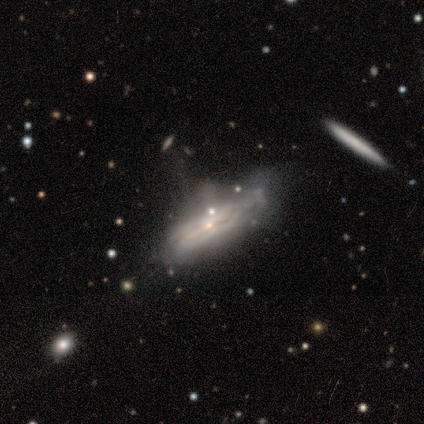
Volunteers were most divided on "merging": minor disturbance: 41%, none: 36%, major disturbance: 15%, merger: 8%. More confident: edge-on disk — yes (70%); smooth or featured — featured or disk (66%); edge-on bulge — rounded (53%).